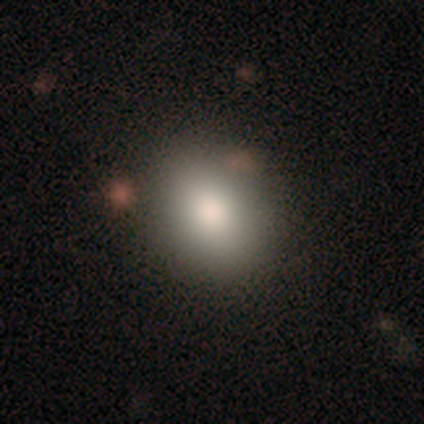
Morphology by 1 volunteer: smooth_or_featured: star or artifact (p=1.00)